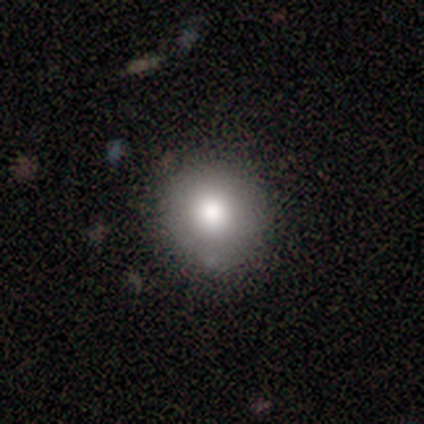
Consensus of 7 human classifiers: Overall: smooth (86%). How rounded: round (100%). Merging: none (100%).